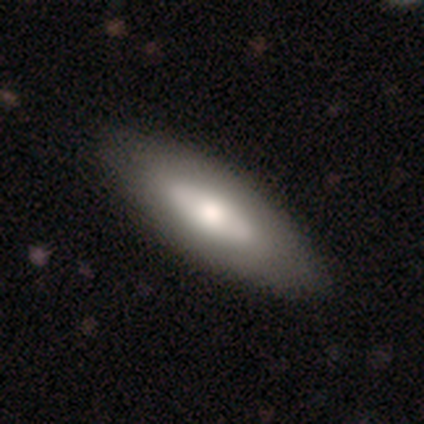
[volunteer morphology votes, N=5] This is marginally a smooth galaxy (40%, tied with featured or disk). How rounded: possibly in between (50%, tied with cigar-shaped). Merging: clearly none (100%).